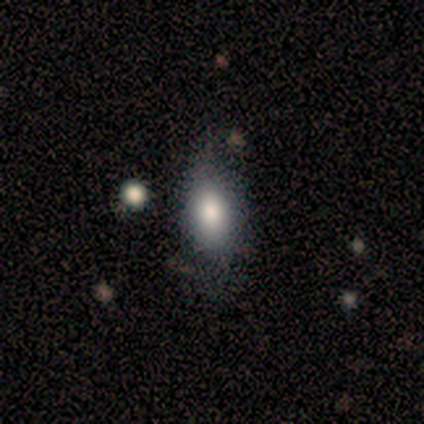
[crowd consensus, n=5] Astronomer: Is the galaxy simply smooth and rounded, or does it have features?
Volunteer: smooth — 100%.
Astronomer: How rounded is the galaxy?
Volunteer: in between — 80%.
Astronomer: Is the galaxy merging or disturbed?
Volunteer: none — 80%.